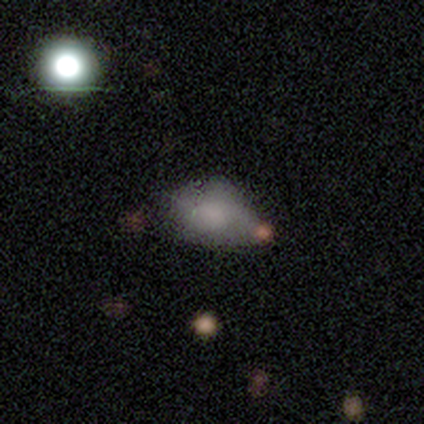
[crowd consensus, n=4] A star or artifact, not a galaxy (75%).

Vote fractions:
- Smooth or featured? star or artifact: 75% / smooth: 25% / featured or disk: 0%